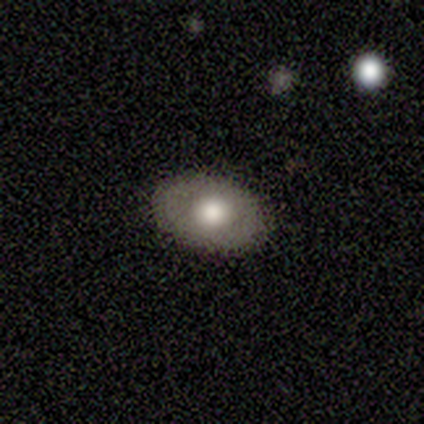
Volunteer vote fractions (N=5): Q: Smooth or featured?
A: featured or disk (40%); tied with: star or artifact (40%)
Q: Edge-on disk?
A: yes (50%); tied with: no (50%)
Q: Edge-on bulge?
A: rounded (100%)
Q: Merging?
A: none (100%)